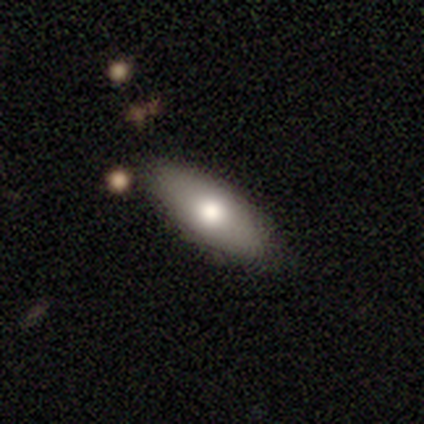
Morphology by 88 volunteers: This is likely a smooth galaxy (74%). How rounded: likely in between (74%). Merging: clearly none (81%).